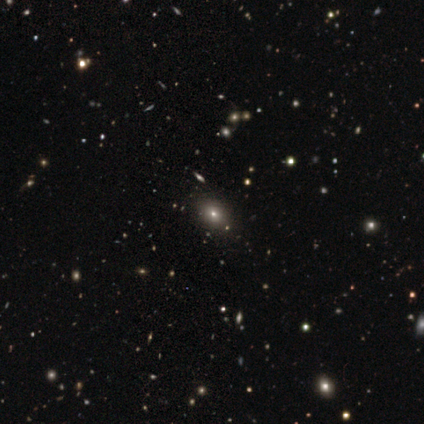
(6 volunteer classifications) This is likely a smooth galaxy (67%). How rounded: likely in between (75%). Merging: clearly none (100%).